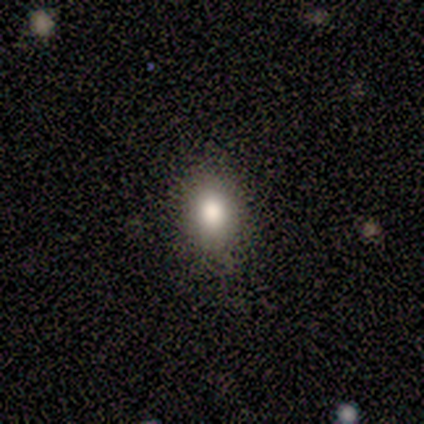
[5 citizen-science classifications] A smooth galaxy with no disk features (60%) that is in between round and cigar-shaped (100%).

Vote fractions:
- Smooth or featured? smooth: 60% / featured or disk: 20% / star or artifact: 20%
- How rounded? in between: 100% / round: 0% / cigar-shaped: 0%
- Merging? none: 75% / minor disturbance: 25% / major disturbance: 0% / merger: 0%